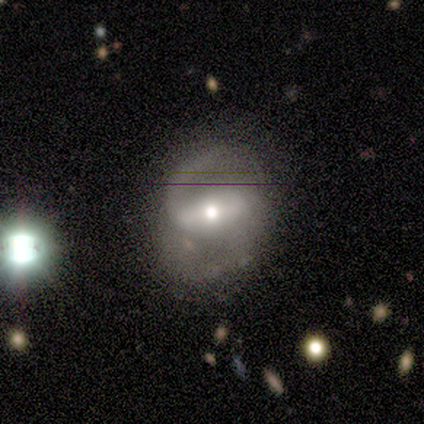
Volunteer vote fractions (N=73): A featured or disk galaxy (81%) with a strong bar (70%), 2 (74%) medium (57%) spiral arms (96%) and a moderate central bulge (70%).

Vote fractions:
- Smooth or featured? featured or disk: 81% / smooth: 10% / star or artifact: 10%
- Edge-on disk? no: 95% / yes: 5%
- Bar? strong: 70% / weak: 23% / no: 7%
- Spiral arms? yes: 96% / no: 4%
- Spiral winding? medium: 57% / loose: 31% / tight: 11%
- Spiral arm count? 2: 74% / 1: 22% / more than 4: 2% / can't tell: 2% / 3: 0% / 4: 0%
- Bulge size? moderate: 70% / small: 21% / large: 9% / dominant: 0% / none: 0%
- Merging? none: 61% / minor disturbance: 21% / major disturbance: 15% / merger: 3%